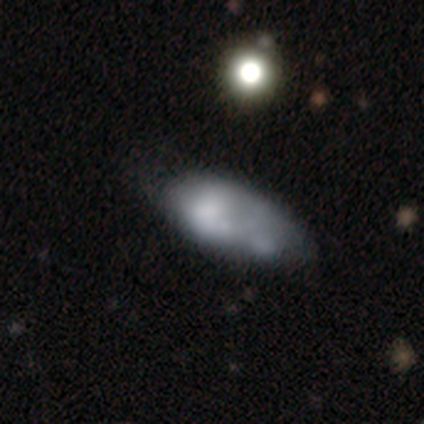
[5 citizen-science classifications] Smooth or featured?
  - smooth: 40% * (tied)
  - featured or disk: 40% * (tied)
  - star or artifact: 20%
How rounded?
  - in between: 100% *
  - round: 0%
  - cigar-shaped: 0%
Merging?
  - none: 50% * (tied)
  - merger: 50% * (tied)
  - minor disturbance: 0%
  - major disturbance: 0%